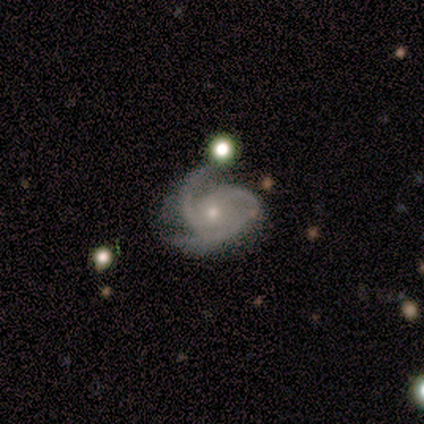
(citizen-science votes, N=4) Morphology: type=featured or disk (75%); edge-on=no (100%); bar=no (67%); spiral arms=yes (100%); winding=medium (67%); arm count=3 (100%); bulge=small (67%); merging=none (33%, tied with minor disturbance and major disturbance).